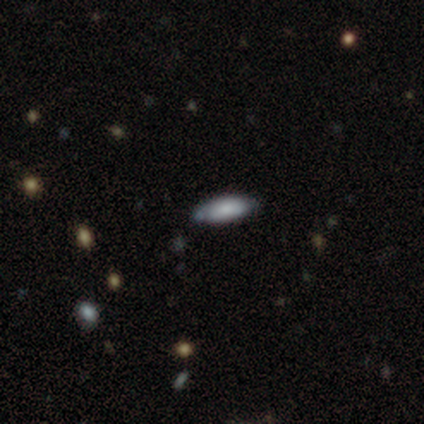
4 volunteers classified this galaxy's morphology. smooth_or_featured: smooth (p=0.75) [alt: star or artifact p=0.25]
how_rounded: in between (p=1.00)
merging: none (p=0.67) [alt: minor disturbance p=0.33]